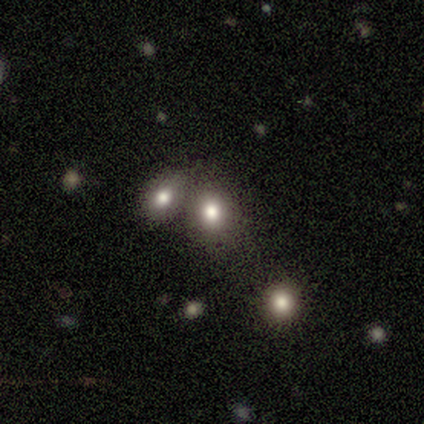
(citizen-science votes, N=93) A smooth galaxy with no disk features (73%) that is round (63%).

Vote fractions:
- Smooth or featured? smooth: 73% / star or artifact: 14% / featured or disk: 13%
- How rounded? round: 63% / in between: 37% / cigar-shaped: 0%
- Merging? merger: 46% / none: 45% / minor disturbance: 6% / major disturbance: 2%